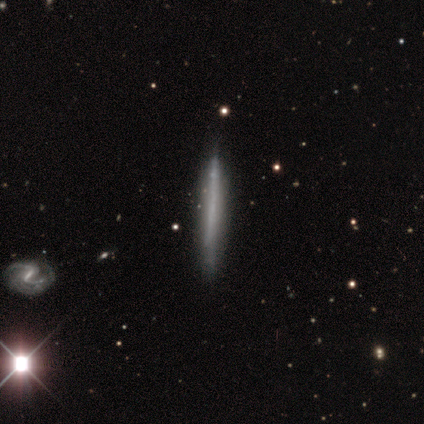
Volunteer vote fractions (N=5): Overall: featured or disk (80%). Edge-on disk: yes (75%). Edge-on bulge: none (100%). Merging: none (100%).